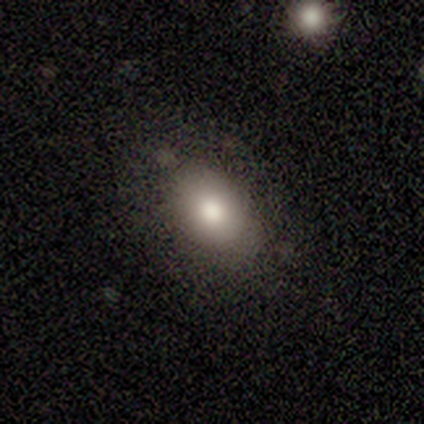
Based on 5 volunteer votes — smooth 80%, star or artifact 20%, featured or disk 0%. Down the decision tree: how rounded — in between (75%); merging — minor disturbance (75%).